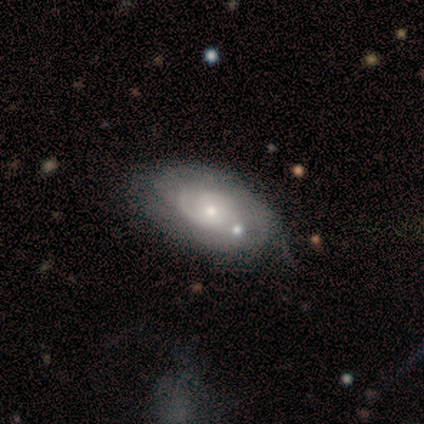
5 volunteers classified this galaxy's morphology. Smooth or featured? 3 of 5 (60%) said featured or disk. Edge-on disk? 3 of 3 (100%) said no. Bar? 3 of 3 (100%) said no. Spiral arms? 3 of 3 (100%) said yes. Spiral winding? 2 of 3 (67%) said loose. Spiral arm count? 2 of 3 (67%) said 1. Bulge size? 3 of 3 (100%) said small. Merging? 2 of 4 (50%) said minor disturbance.